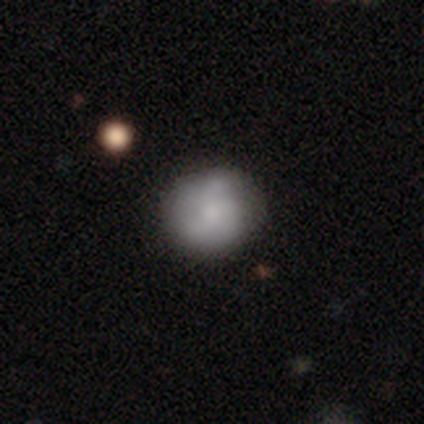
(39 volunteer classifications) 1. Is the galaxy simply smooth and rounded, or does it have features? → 59% smooth, 36% featured or disk, 5% star or artifact.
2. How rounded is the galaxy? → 83% round, 17% in between, 0% cigar-shaped.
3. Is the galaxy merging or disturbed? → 70% none, 19% minor disturbance, 8% major disturbance, 3% merger.